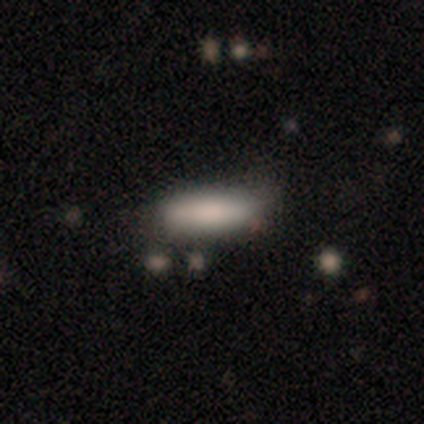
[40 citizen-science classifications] Q: Smooth or featured?
A: smooth (85%); runner-up: featured or disk (8%)
Q: How rounded?
A: in between (56%); runner-up: cigar-shaped (41%)
Q: Merging?
A: none (35%); runner-up: minor disturbance (19%)